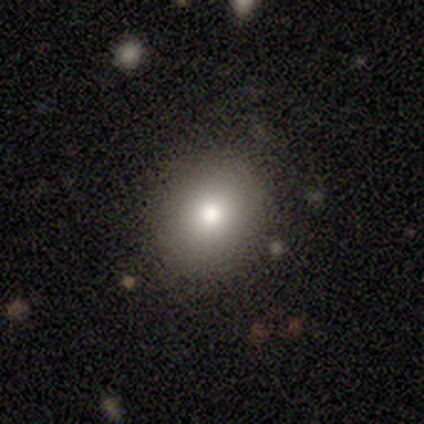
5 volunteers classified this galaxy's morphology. smooth_or_featured: smooth (p=0.60) [alt: featured or disk p=0.40]
how_rounded: round (p=0.67) [alt: in between p=0.33]
merging: none (p=1.00)